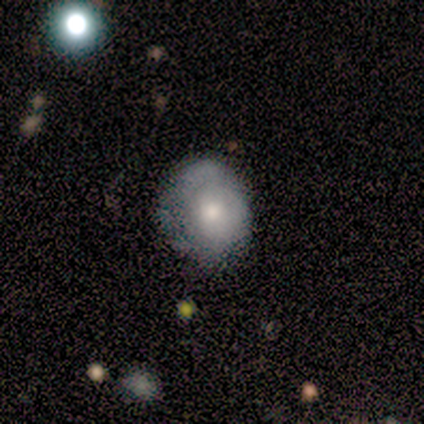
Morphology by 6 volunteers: Volunteers were most divided on "merging" (3-way tie): none: 33%, minor disturbance: 33%, major disturbance: 33%, merger: 0%. More confident: smooth or featured — smooth (100%); how rounded — round (67%).